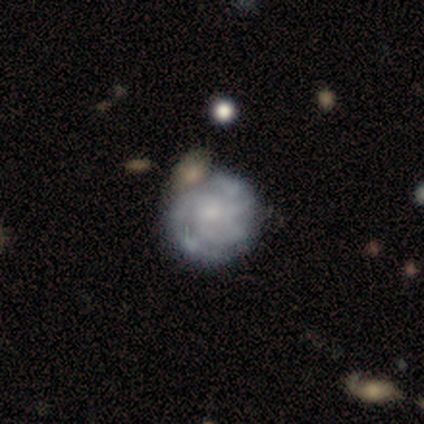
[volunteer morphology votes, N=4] This is likely a featured or disk galaxy (75%). It is clearly not viewed edge-on (100%). Bar: clearly no (100%). Spiral arm pattern: clearly yes (100%). Spiral arm count: marginally 3 (33%, tied with 4 and can't tell). Spiral winding: clearly tight (100%). Central bulge: likely none (67%). Merging: likely none (75%).